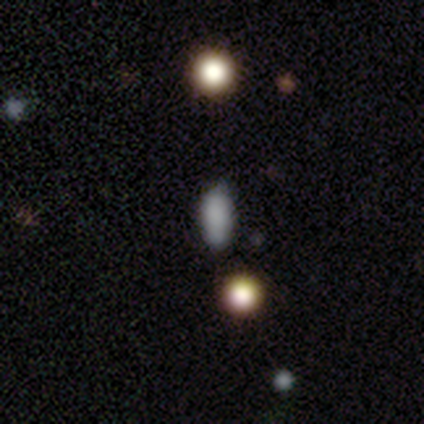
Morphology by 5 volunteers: type=smooth (60%); roundness=in between (100%); merging=none (67%).